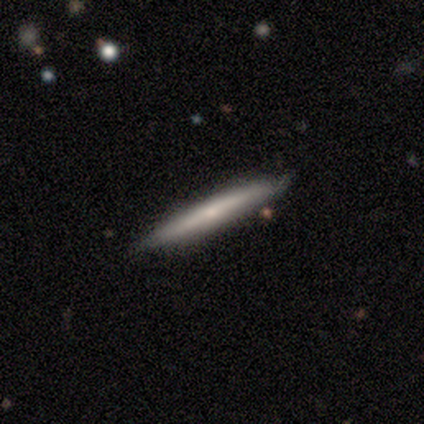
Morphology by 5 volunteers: smooth_or_featured: smooth (p=0.60) [alt: featured or disk p=0.20]
how_rounded: cigar-shaped (p=1.00)
merging: none (p=1.00)